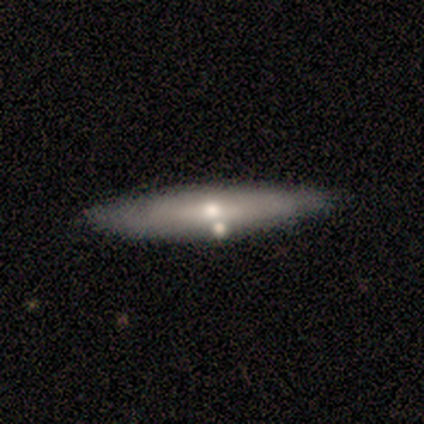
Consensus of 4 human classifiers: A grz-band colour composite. It shows a smooth galaxy with no disk features (50%, tied with featured or disk) that is cigar-shaped (100%). Merging: none (100%).